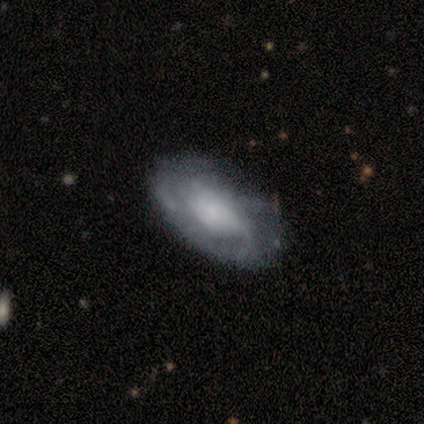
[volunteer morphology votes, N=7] This appears to be a featured or disk galaxy (86%) with no bar (100%), loose (50%) spiral arms (100%) and a small central bulge (67%). Merging: none (86%).